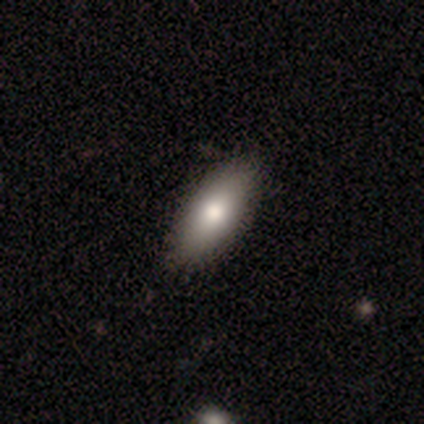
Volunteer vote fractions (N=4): Smooth or featured? smooth (75%)
How rounded? in between (100%)
Merging? none (100%)